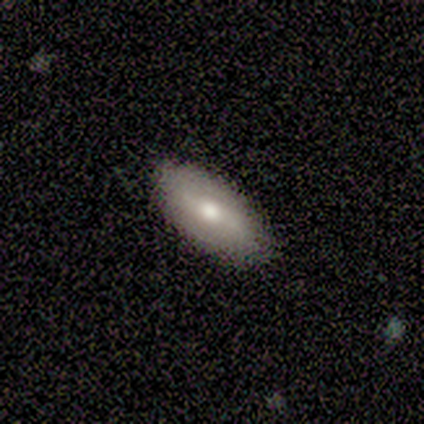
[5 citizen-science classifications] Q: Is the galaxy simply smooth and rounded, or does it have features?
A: smooth — 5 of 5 (100%).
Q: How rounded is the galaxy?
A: in between — 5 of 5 (100%).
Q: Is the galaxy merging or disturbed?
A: none — 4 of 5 (80%).